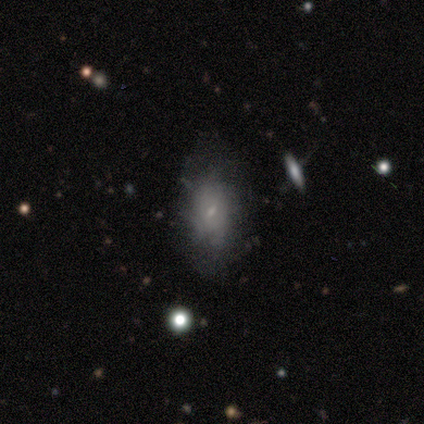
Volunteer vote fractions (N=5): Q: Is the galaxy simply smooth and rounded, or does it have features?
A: featured or disk — 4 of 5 (80%).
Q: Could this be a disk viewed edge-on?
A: no — 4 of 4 (100%).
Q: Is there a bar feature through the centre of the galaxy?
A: no — 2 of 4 (50%).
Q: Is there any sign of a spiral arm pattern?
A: no — 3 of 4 (75%).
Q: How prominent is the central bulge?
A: small — 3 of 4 (75%).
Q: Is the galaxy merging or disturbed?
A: none — 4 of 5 (80%).